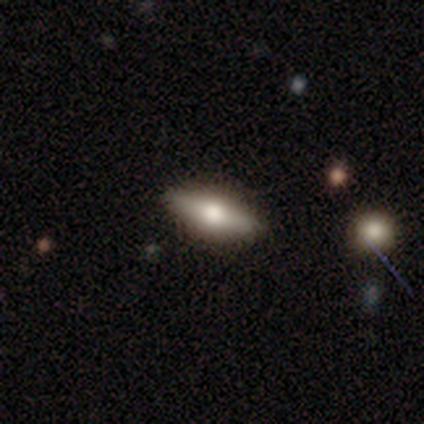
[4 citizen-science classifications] smooth-or-featured: featured or disk: 75% | smooth: 25% | star or artifact: 0%
  disk-edge-on: yes: 100% | no: 0%
    edge-on-bulge: rounded: 100% | boxy: 0% | none: 0%
  merging: none: 75% | minor disturbance: 25% | major disturbance: 0% | merger: 0%